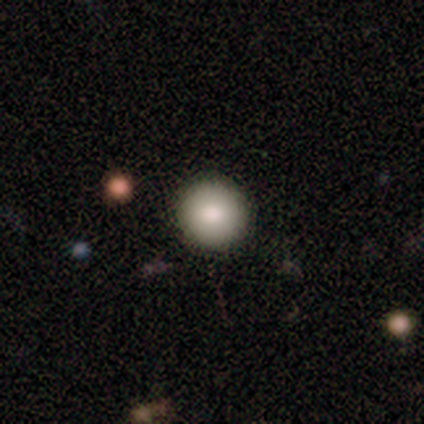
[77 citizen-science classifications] smooth 90%, featured or disk 5%, star or artifact 5%. Down the decision tree: how rounded — round (96%); merging — none (47%).